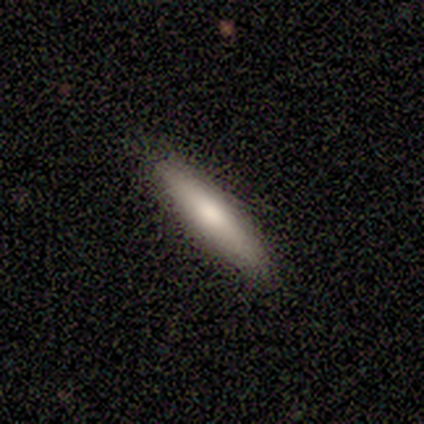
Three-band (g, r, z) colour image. It shows a smooth galaxy with no disk features (100%) that is cigar-shaped (100%). Merging: none (60%).